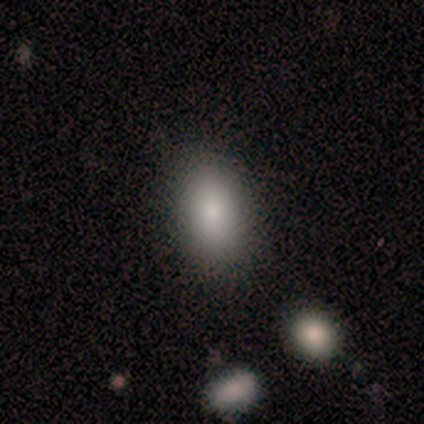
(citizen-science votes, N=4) A smooth galaxy with no disk features (75%) that is in between round and cigar-shaped (100%). Merging: none (100%).